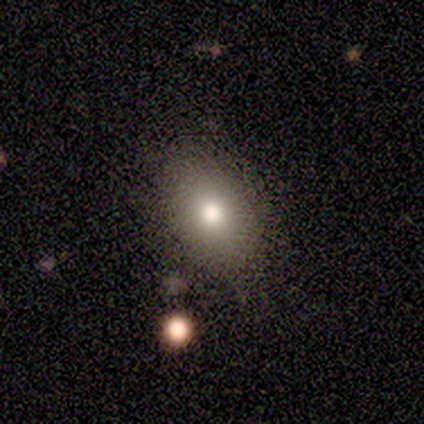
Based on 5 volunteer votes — A smooth galaxy with no disk features (100%) that is in between round and cigar-shaped (100%).

Vote fractions:
- Smooth or featured? smooth: 100% / featured or disk: 0% / star or artifact: 0%
- How rounded? in between: 100% / round: 0% / cigar-shaped: 0%
- Merging? none: 80% / minor disturbance: 20% / major disturbance: 0% / merger: 0%